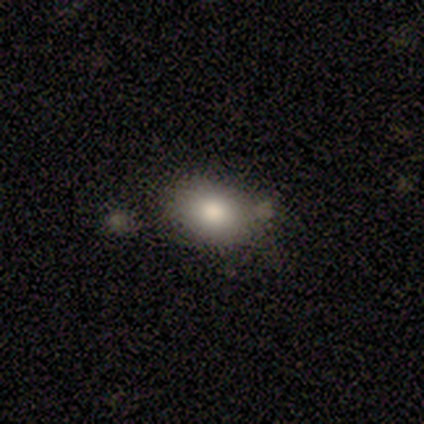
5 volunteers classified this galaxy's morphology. smooth-or-featured: smooth: 100% | featured or disk: 0% | star or artifact: 0%
  how-rounded: in between: 80% | round: 20% | cigar-shaped: 0%
  merging: none: 80% | minor disturbance: 20% | major disturbance: 0% | merger: 0%